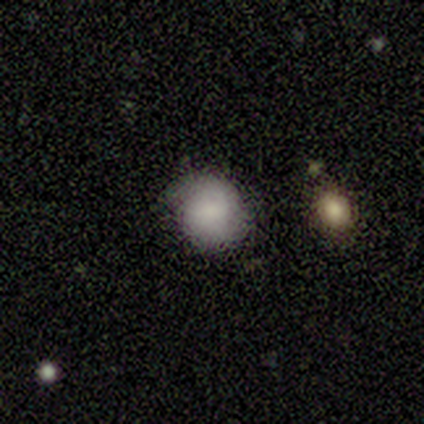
This is possibly a smooth galaxy (50%, tied with featured or disk). How rounded: likely in between (67%). Merging: likely none (67%).